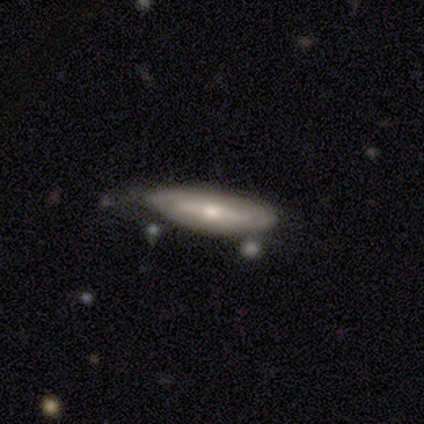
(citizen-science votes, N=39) Smooth or featured: featured or disk — 67% (smooth — 33%)
Edge-on disk: yes — 54% (no — 46%)
Edge-on bulge: rounded — 79% (none — 21%)
Merging: none — 72% (minor disturbance — 18%)